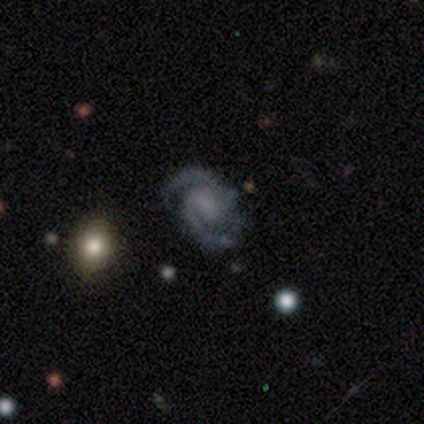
Smooth or featured? featured or disk (60%)
Edge-on disk? no (100%)
Bar? no (67%)
Spiral arms? yes (100%)
Spiral winding? medium (100%)
Spiral arm count? 2 (100%)
Bulge size? small (67%)
Merging? none (100%)